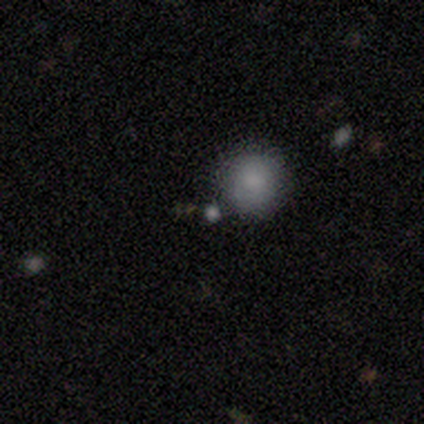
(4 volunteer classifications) A smooth galaxy with no disk features (75%) that is round (100%). Merging: none (75%).